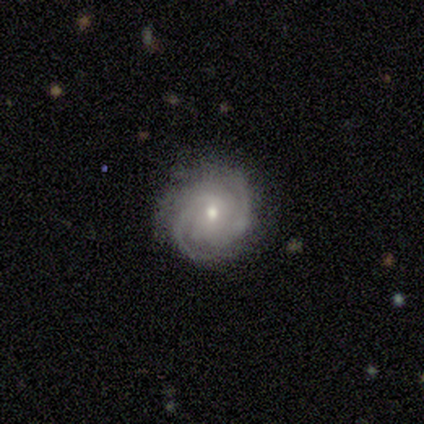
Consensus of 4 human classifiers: A featured or disk galaxy (100%) with no bar (75%), 2 (50%, tied with can't tell) tight (75%) spiral arms (100%) and a moderate central bulge (50%). Merging: none (100%).